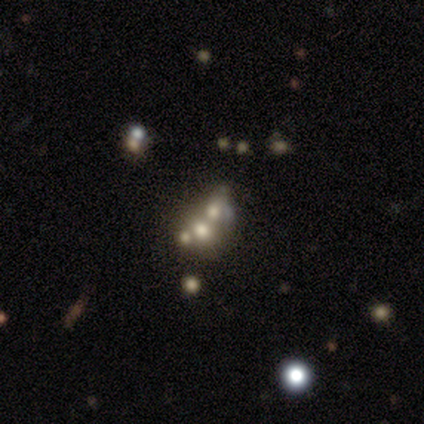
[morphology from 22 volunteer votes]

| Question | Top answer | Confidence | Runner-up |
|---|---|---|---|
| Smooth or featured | featured or disk | 59% | star or artifact (27%) |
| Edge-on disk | no | 92% | yes (8%) |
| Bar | no | 100% | — |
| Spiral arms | no | 100% | — |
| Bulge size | moderate | 33% | dominant (25%) |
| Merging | merger | 44% | none (31%) |